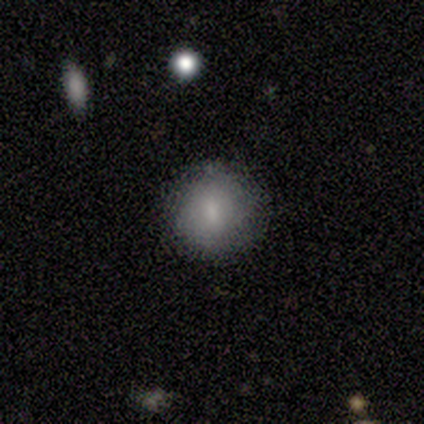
This appears to be a smooth galaxy with no disk features (91%) that is round (80%). Merging: none (80%).